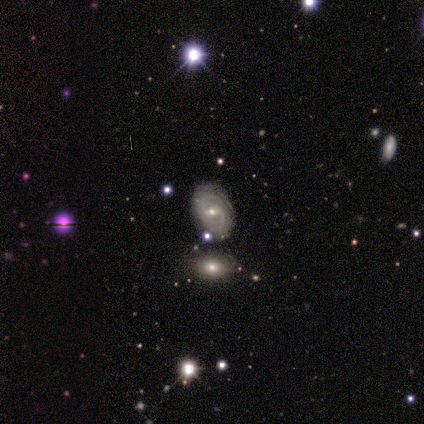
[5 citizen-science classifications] Smooth or featured? featured or disk (80%)
Edge-on disk? no (75%)
Bar? weak (67%)
Spiral arms? yes (100%)
Spiral winding? tight (100%)
Spiral arm count? can't tell (67%)
Bulge size? small (100%)
Merging? none (80%)